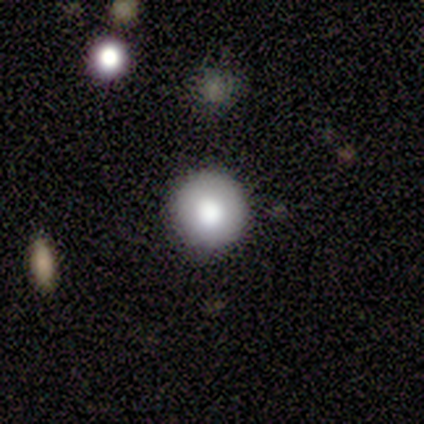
smooth_or_featured: smooth (p=1.00)
how_rounded: round (p=1.00)
merging: none (p=1.00)